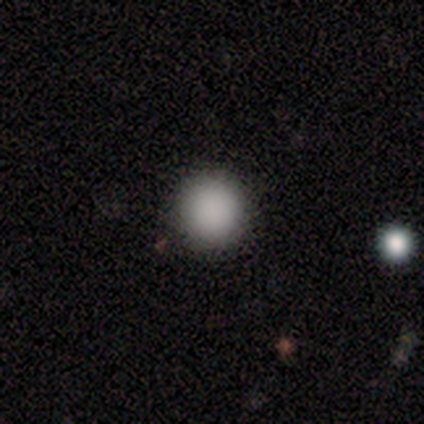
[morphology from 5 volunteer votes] A smooth galaxy with no disk features (100%) that is round (60%).

Vote fractions:
- Smooth or featured? smooth: 100% / featured or disk: 0% / star or artifact: 0%
- How rounded? round: 60% / in between: 40% / cigar-shaped: 0%
- Merging? none: 80% / minor disturbance: 20% / major disturbance: 0% / merger: 0%